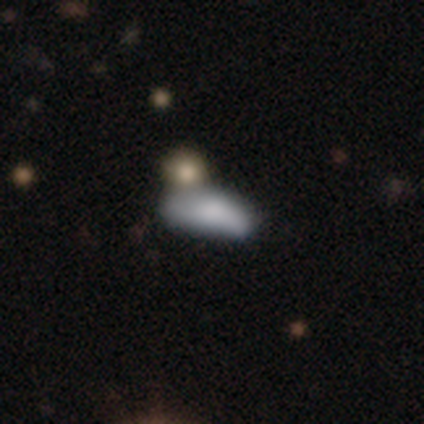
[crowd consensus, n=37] smooth-or-featured: smooth: 76% | featured or disk: 14% | star or artifact: 11%
  how-rounded: in between: 82% | cigar-shaped: 18% | round: 0%
  merging: minor disturbance: 33% | none: 30% | major disturbance: 18% | merger: 18%